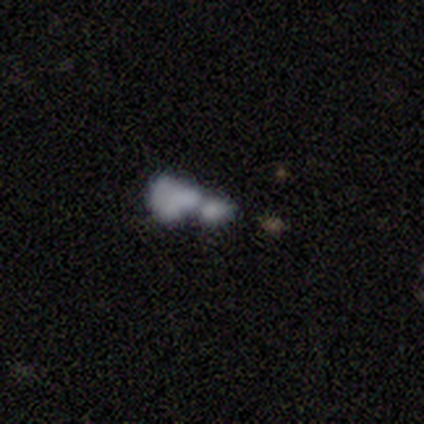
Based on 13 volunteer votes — smooth 62%, featured or disk 31%, star or artifact 8%. Down the decision tree: how rounded — in between (88%); merging — merger (58%).